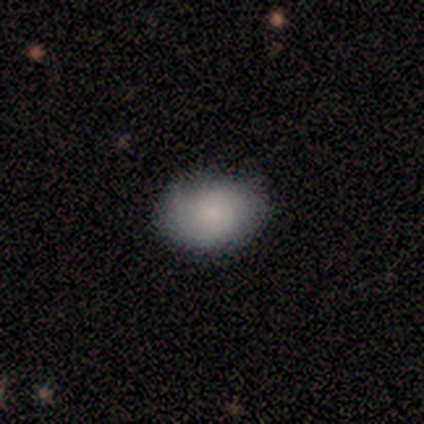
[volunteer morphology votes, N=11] type=smooth (91%); roundness=in between (70%); merging=none (100%).